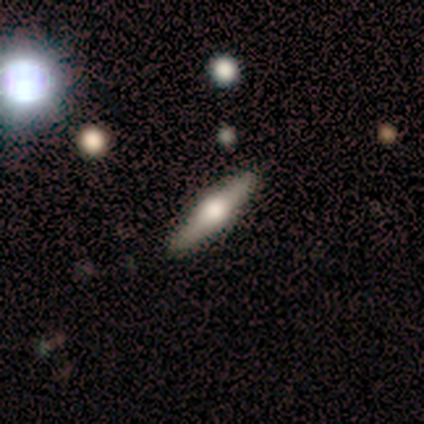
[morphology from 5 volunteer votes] Q: Smooth or featured?
A: featured or disk (60%); runner-up: smooth (40%)
Q: Edge-on disk?
A: yes (100%)
Q: Edge-on bulge?
A: rounded (100%)
Q: Merging?
A: none (100%)